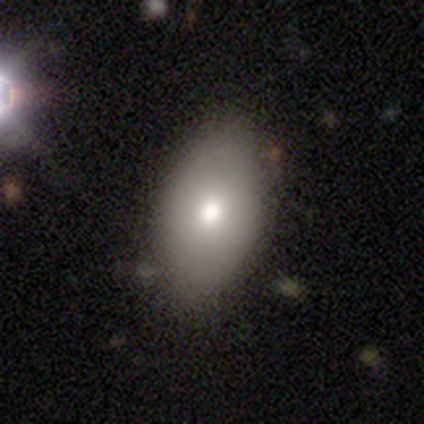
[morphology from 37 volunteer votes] type=smooth (78%); roundness=in between (100%); merging=none (83%).